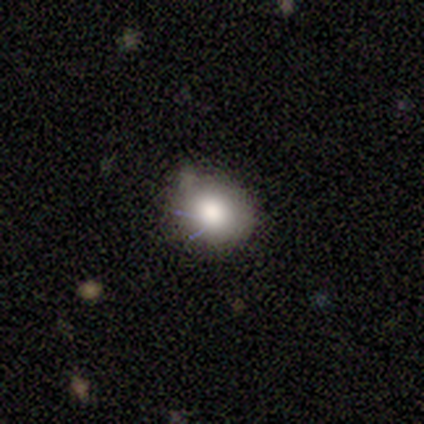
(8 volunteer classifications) This is clearly a smooth galaxy (88%). How rounded: possibly round (57%). Merging: clearly none (86%).